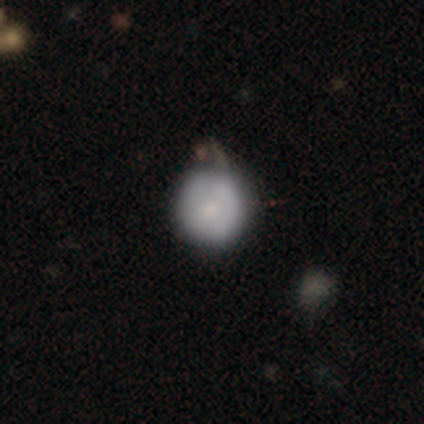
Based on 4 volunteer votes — This is clearly a smooth galaxy (100%). How rounded: clearly round (100%). Merging: possibly none (50%, tied with minor disturbance).